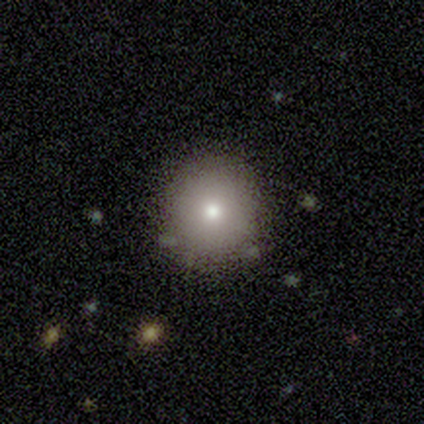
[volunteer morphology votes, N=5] Consensus on every question: smooth or featured — smooth (100%); how rounded — round (100%); merging — none (100%).